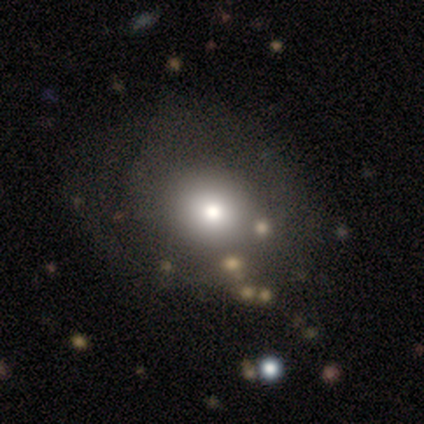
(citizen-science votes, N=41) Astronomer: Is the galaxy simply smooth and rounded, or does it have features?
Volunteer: smooth — 73%.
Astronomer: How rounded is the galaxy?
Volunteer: round — 73%.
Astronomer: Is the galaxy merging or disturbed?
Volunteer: none — 46%.